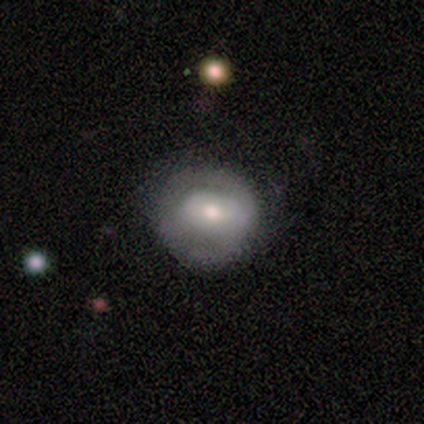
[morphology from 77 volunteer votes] type=featured or disk (48%); edge-on=no (100%); bar=no (57%); spiral arms=no (59%); bulge=moderate (59%); merging=none (51%).